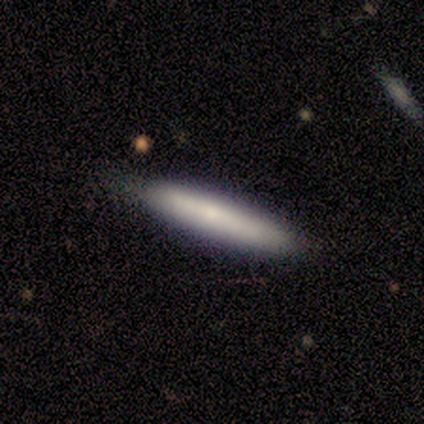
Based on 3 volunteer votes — Smooth or featured? 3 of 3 (100%) said smooth. How rounded? 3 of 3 (100%) said cigar-shaped. Merging? 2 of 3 (67%) said none.